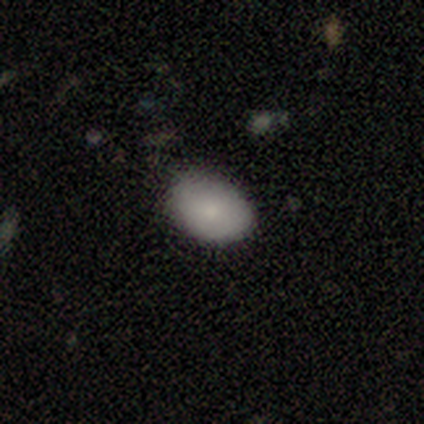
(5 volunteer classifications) A smooth galaxy with no disk features (60%) that is in between round and cigar-shaped (100%).

Vote fractions:
- Smooth or featured? smooth: 60% / featured or disk: 20% / star or artifact: 20%
- How rounded? in between: 100% / round: 0% / cigar-shaped: 0%
- Merging? none: 50% (tied) / minor disturbance: 50% (tied) / major disturbance: 0% / merger: 0%